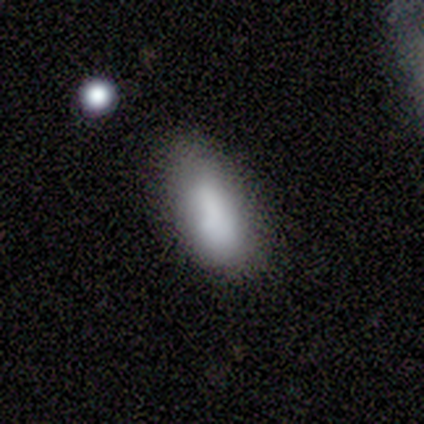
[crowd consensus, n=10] Smooth or featured? smooth (80%)
How rounded? in between (100%)
Merging? minor disturbance (50%)